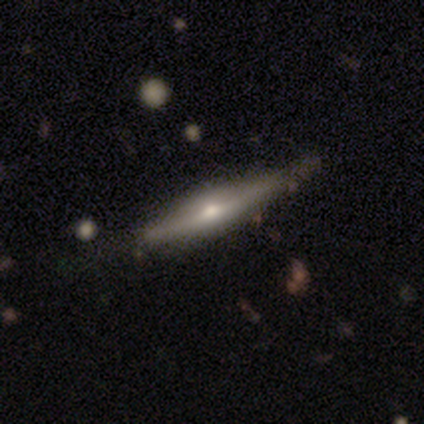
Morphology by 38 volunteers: Overall: featured or disk (71%). Edge-on disk: yes (93%). Edge-on bulge: rounded (84%). Merging: none (78%).